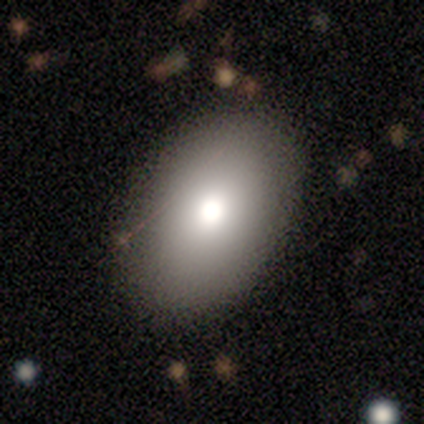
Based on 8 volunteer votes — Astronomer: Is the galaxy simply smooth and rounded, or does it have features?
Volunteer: smooth — 88%.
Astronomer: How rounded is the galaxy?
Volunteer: in between — 71%.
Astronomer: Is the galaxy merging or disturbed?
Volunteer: none — 100%.